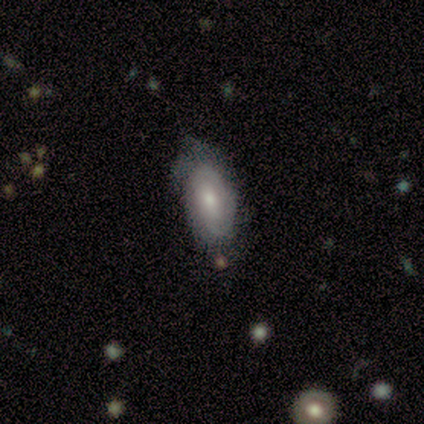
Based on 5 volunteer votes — Smooth or featured: featured or disk — 60% (smooth — 40%)
Edge-on disk: no — 100%
Bar: no — 100%
Spiral arms: yes — 67% (no — 33%)
Spiral winding: tight — 100%
Spiral arm count: can't tell — 100%
Bulge size: large — 67% (small — 33%)
Merging: none — 60% (minor disturbance — 20%)